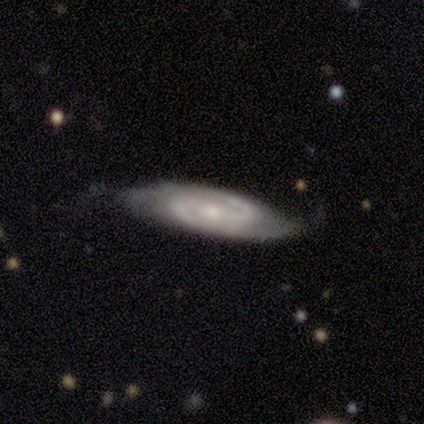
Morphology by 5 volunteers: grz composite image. It shows a featured or disk galaxy (100%) with no bar (60%), 2 (100%) medium (40%, tied with loose) spiral arms (100%) and a small central bulge (80%). Merging: none (60%).